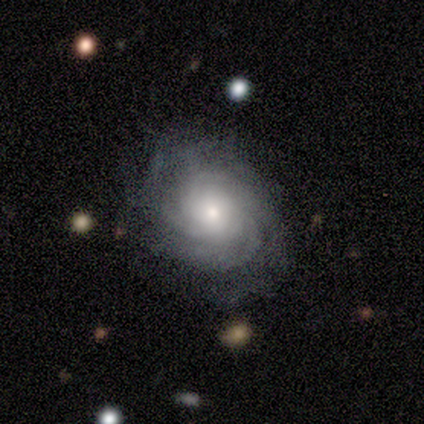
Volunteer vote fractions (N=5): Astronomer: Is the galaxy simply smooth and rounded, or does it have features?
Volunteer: featured or disk — 60% (runner-up: smooth, 40%).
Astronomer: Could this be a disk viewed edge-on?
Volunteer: no — 100%.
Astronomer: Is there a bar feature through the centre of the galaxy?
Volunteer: no — 100%.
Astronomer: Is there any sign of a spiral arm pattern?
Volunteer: yes — 100%.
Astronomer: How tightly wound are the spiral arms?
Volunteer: tight — 67%.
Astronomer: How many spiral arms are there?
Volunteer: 3 — 33%, tied with 4 and can't tell at 33%.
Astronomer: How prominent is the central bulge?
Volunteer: moderate — 67%.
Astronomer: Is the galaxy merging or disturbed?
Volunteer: none — 60% (runner-up: minor disturbance, 40%).